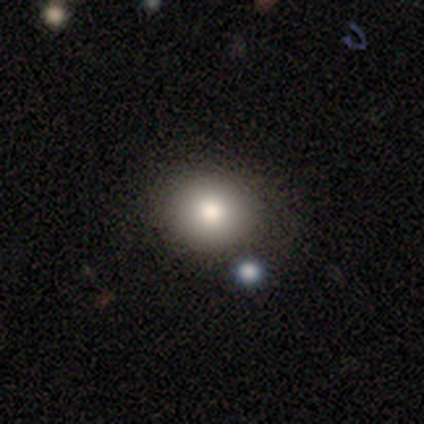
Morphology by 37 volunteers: Overall: smooth (84%). How rounded: round (68%; in between 32%). Merging: none (79%).